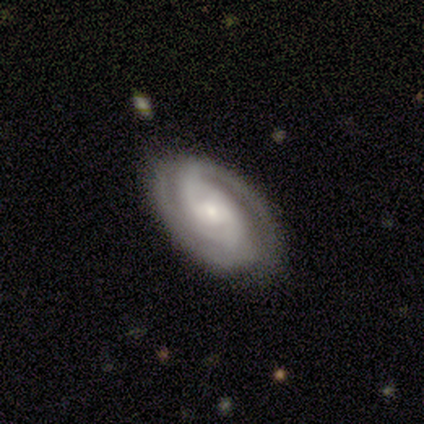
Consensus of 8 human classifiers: This appears to be a featured or disk galaxy (100%) with a weak bar (62%), 2 (75%) tight (88%) spiral arms (100%) and a small central bulge (75%). Merging: none (100%).